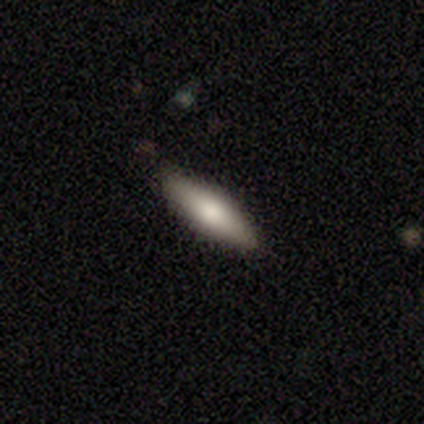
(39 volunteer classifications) Morphology: type=smooth (77%); roundness=cigar-shaped (60%); merging=none (82%).